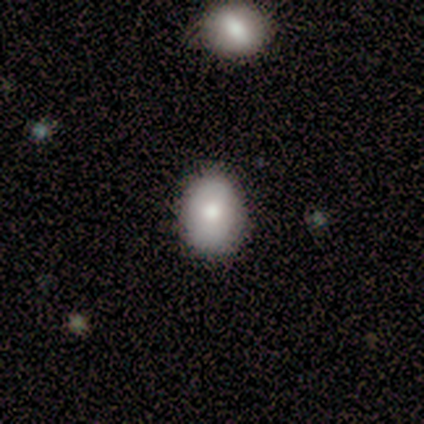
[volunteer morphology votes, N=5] Q: Smooth or featured?
A: smooth (60%); runner-up: star or artifact (40%)
Q: How rounded?
A: in between (100%)
Q: Merging?
A: none (100%)